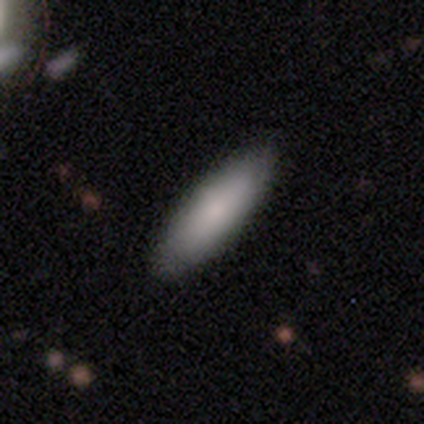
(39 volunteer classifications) Smooth or featured? 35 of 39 (90%) said smooth. How rounded? 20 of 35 (57%) said cigar-shaped. Merging? 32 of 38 (84%) said none.